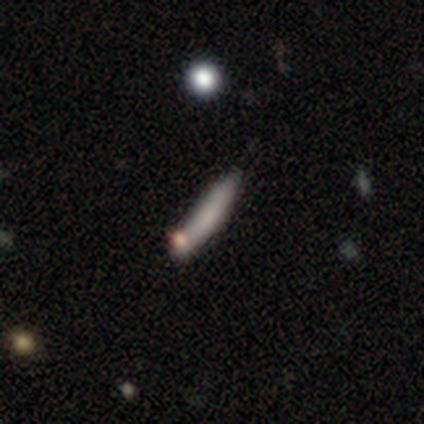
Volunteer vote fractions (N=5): Volunteers were most divided on "smooth or featured": smooth: 60%, featured or disk: 20%, star or artifact: 20%. More confident: how rounded — cigar-shaped (100%); merging — none (75%).